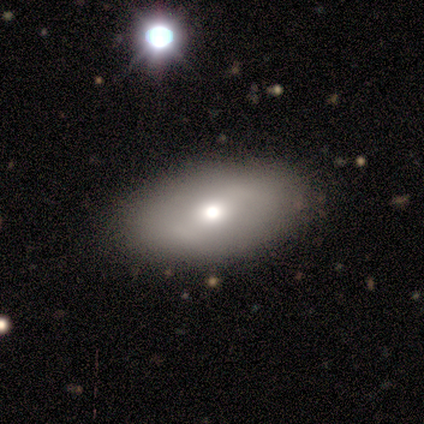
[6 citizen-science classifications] This is likely a featured or disk galaxy (67%). It is clearly not viewed edge-on (100%). Bar: possibly weak (50%, tied with no). Spiral arm pattern: likely no (75%). Central bulge: possibly moderate (50%). Merging: clearly none (83%).